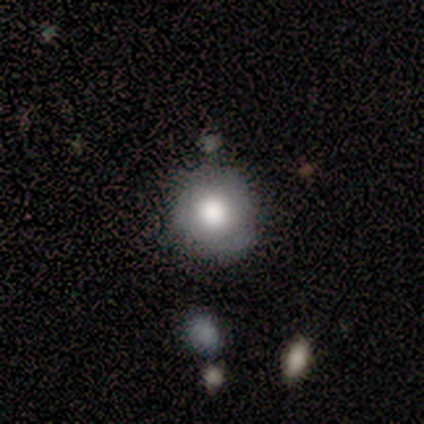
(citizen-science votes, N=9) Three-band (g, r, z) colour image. It shows a smooth galaxy with no disk features (100%) that is round (67%). Merging: none (78%).